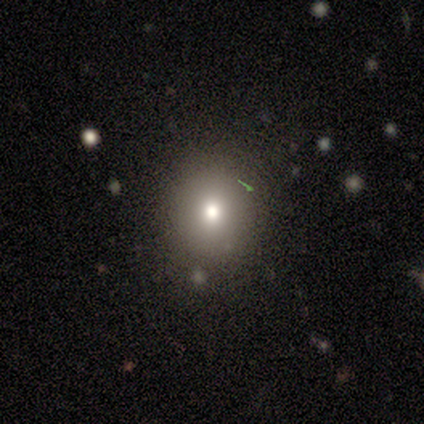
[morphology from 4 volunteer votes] This appears to be a smooth galaxy with no disk features (75%) that is round (100%). Merging: none (100%).